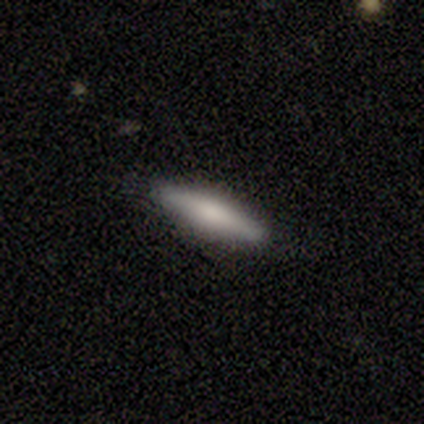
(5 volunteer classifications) This is likely a smooth galaxy (60%). How rounded: clearly cigar-shaped (100%). Merging: clearly none (100%).